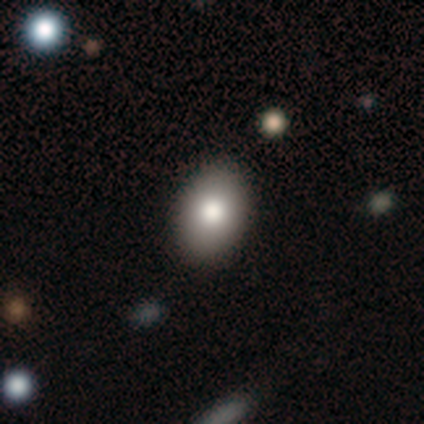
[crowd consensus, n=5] Smooth or featured?
  - smooth: 60% *
  - featured or disk: 40%
  - star or artifact: 0%
How rounded?
  - in between: 67% *
  - round: 33%
  - cigar-shaped: 0%
Merging?
  - none: 80% *
  - minor disturbance: 20%
  - major disturbance: 0%
  - merger: 0%